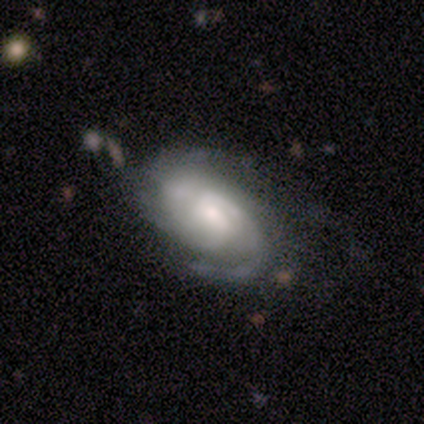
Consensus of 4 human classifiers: Volunteers were most divided on "bulge size" (2-way tie): moderate: 50%, small: 50%, dominant: 0%, large: 0%, none: 0%. More confident: smooth or featured — featured or disk (100%); edge-on disk — no (100%); spiral arms — yes (100%); bar — no (75%); spiral winding — medium (75%); merging — none (75%); spiral arm count — 2 (50%).